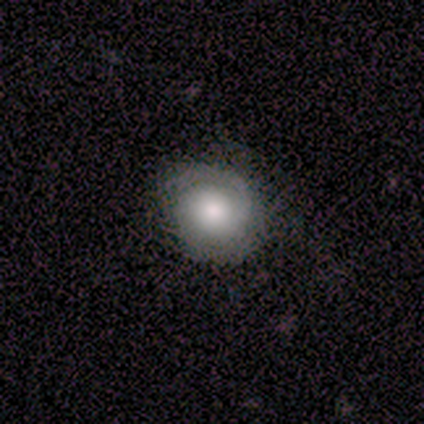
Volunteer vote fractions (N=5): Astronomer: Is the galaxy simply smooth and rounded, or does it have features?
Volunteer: smooth — 60% (runner-up: featured or disk, 40%).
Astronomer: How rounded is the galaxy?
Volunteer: round — 100%.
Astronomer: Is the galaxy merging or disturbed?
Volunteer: none — 100%.